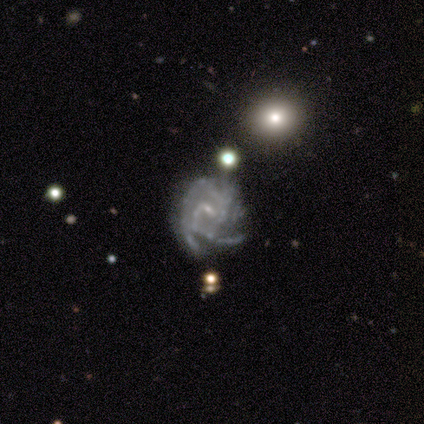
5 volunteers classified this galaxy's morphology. Smooth or featured: featured or disk — 80% (smooth — 20%)
Edge-on disk: no — 100%
Bar: weak — 50% (tied with no — 50%)
Spiral arms: yes — 100%
Spiral winding: tight — 75% (medium — 25%)
Spiral arm count: 2 — 25% (tied with 3 — 25%; 4 — 25%; can't tell — 25%)
Bulge size: small — 75% (none — 25%)
Merging: none — 60% (minor disturbance — 40%)